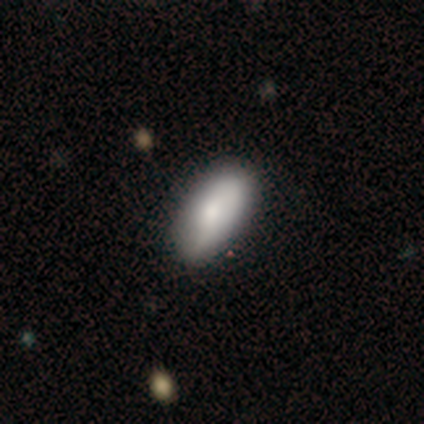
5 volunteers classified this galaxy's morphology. Smooth or featured? smooth (60%)
How rounded? in between (100%)
Merging? none (80%)